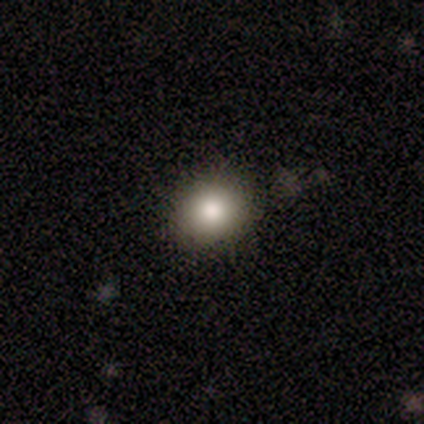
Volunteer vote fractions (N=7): This appears to be a smooth galaxy with no disk features (43%, tied with star or artifact) that is round (100%). Merging: none (100%).